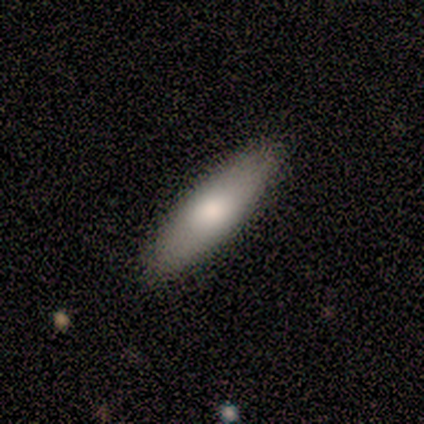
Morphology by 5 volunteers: type=smooth (80%); roundness=in between (75%); merging=none (100%).